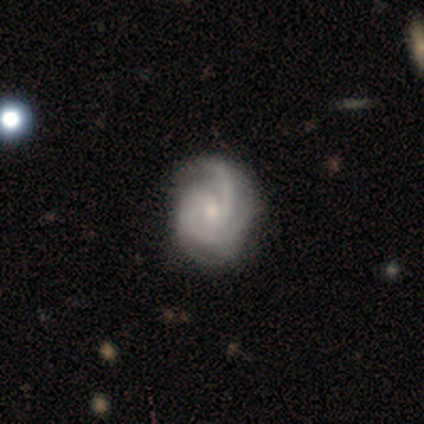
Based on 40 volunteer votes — smooth-or-featured: featured or disk: 90% | star or artifact: 8% | smooth: 2%
  disk-edge-on: no: 97% | yes: 3%
    bar: no: 60% | weak: 31% | strong: 9%
    has-spiral-arms: yes: 100% | no: 0%
      spiral-winding: medium: 46% | tight: 40% | loose: 14%
      spiral-arm-count: 2: 57% | can't tell: 26% | 3: 17% | 1: 0% | 4: 0% | more than 4: 0%
    bulge-size: small: 77% | moderate: 20% | none: 3% | dominant: 0% | large: 0%
  merging: none: 62% | minor disturbance: 11% | major disturbance: 3% | merger: 0%